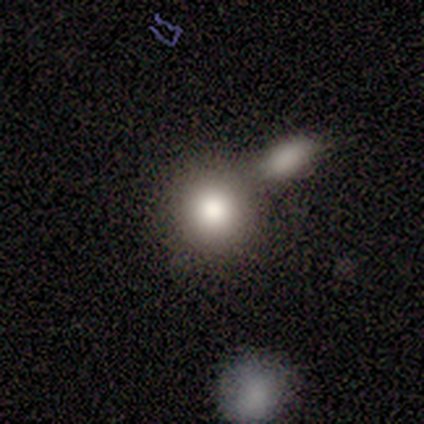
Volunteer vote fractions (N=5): A smooth galaxy with no disk features (100%) that is round (80%). Merging: none (40%, tied with merger).